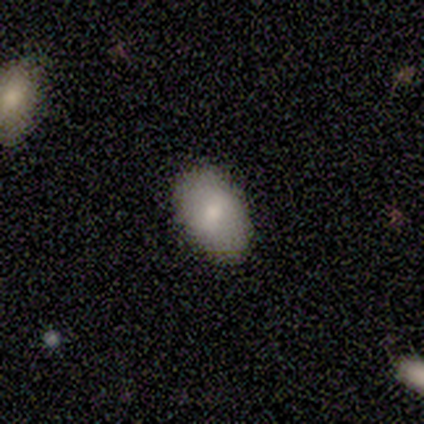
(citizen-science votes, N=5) Q: Smooth or featured?
A: smooth (60%); runner-up: star or artifact (40%)
Q: How rounded?
A: in between (100%)
Q: Merging?
A: none (100%)